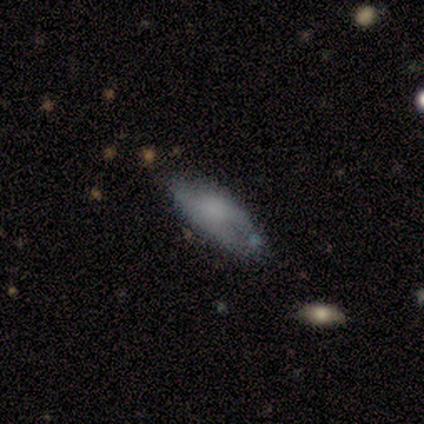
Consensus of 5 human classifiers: smooth 60%, featured or disk 20%, star or artifact 20%. Down the decision tree: how rounded — in between (100%); merging — none (100%).